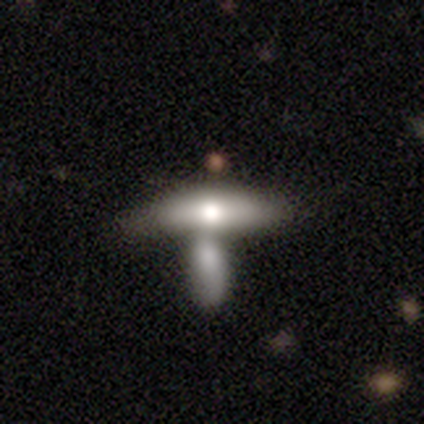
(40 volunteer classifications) smooth 70%, featured or disk 25%, star or artifact 5%. Down the decision tree: how rounded — in between (57%); merging — merger (74%).